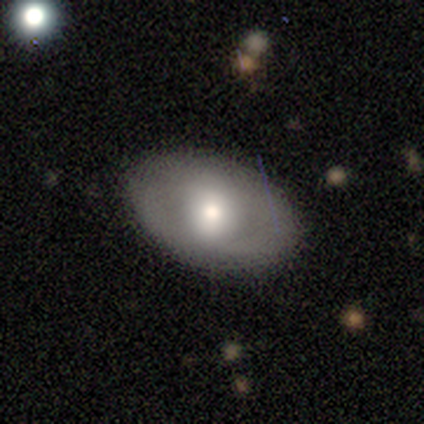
This is likely a smooth galaxy (60%). How rounded: clearly in between (100%). Merging: clearly none (100%).